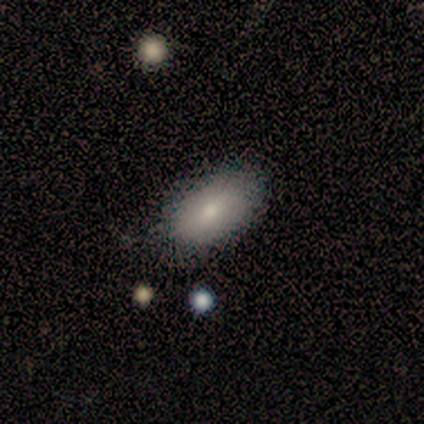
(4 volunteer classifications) Morphology: type=smooth (100%); roundness=in between (100%); merging=none (75%).